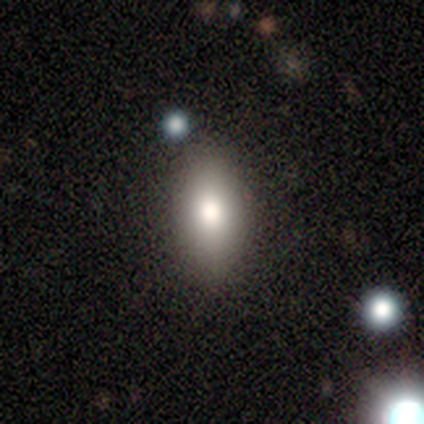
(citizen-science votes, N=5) Volunteers were most divided on "smooth or featured": smooth: 80%, featured or disk: 20%, star or artifact: 0%. More confident: how rounded — in between (100%); merging — none (80%).